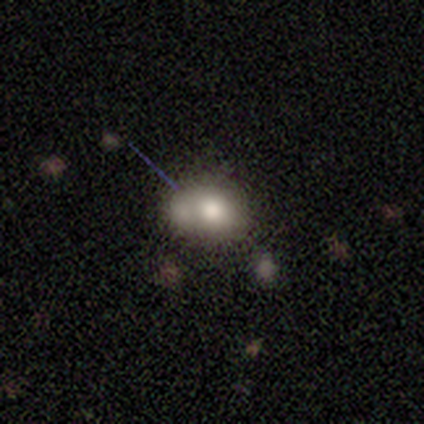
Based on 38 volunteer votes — Smooth or featured?
  - smooth: 66% *
  - featured or disk: 26%
  - star or artifact: 8%
How rounded?
  - round: 64% *
  - in between: 36%
  - cigar-shaped: 0%
Merging?
  - merger: 54% *
  - none: 0%
  - minor disturbance: 0%
  - major disturbance: 0%